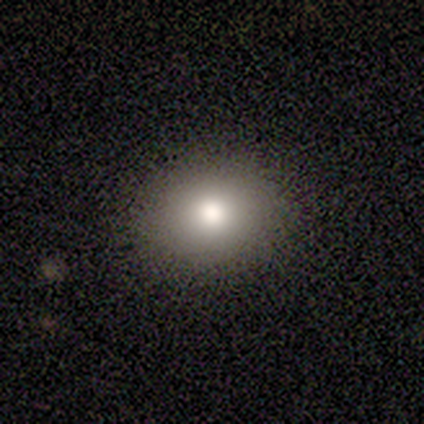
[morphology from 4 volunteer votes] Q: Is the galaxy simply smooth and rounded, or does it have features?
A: smooth — 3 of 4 (75%).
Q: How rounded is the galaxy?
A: round — 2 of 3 (67%).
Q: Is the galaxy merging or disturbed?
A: none — 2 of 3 (67%).